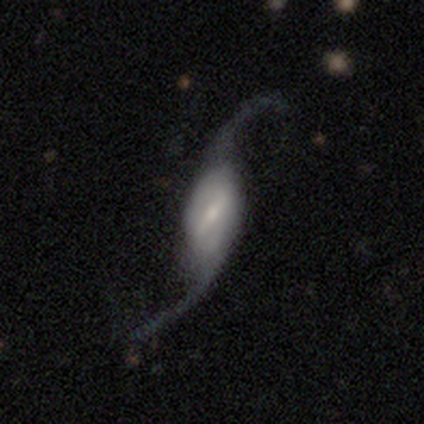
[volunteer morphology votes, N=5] Q: Smooth or featured?
A: featured or disk (80%); runner-up: smooth (20%)
Q: Edge-on disk?
A: yes (50%); tied with: no (50%)
Q: Edge-on bulge?
A: rounded (100%)
Q: Merging?
A: none (40%); tied with: minor disturbance (40%)